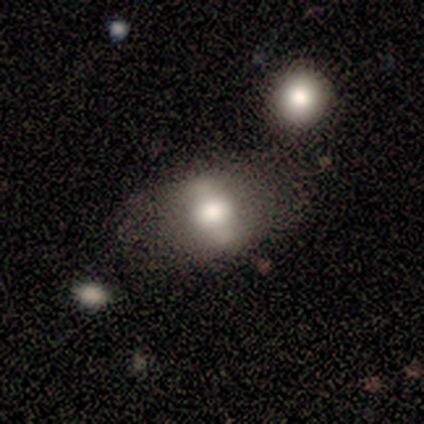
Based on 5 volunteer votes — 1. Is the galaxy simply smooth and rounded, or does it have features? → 80% smooth, 20% featured or disk, 0% star or artifact.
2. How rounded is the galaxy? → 100% in between, 0% round, 0% cigar-shaped.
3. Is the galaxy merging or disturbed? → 60% none, 40% minor disturbance, 0% major disturbance, 0% merger.